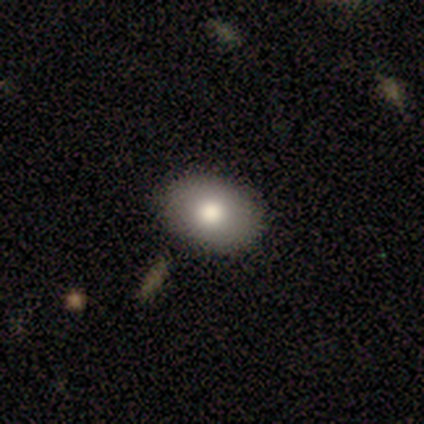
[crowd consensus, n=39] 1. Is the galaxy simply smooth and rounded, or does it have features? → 74% smooth, 15% featured or disk, 10% star or artifact.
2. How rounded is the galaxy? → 72% in between, 28% round, 0% cigar-shaped.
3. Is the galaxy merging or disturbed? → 91% none, 9% minor disturbance, 0% major disturbance, 0% merger.